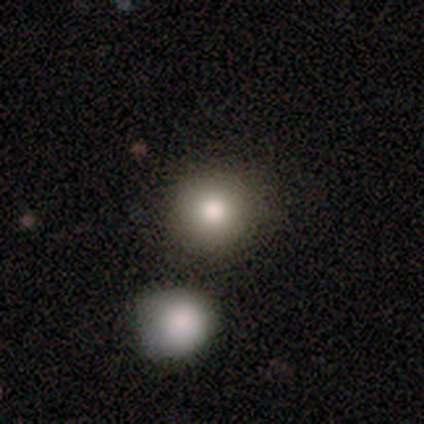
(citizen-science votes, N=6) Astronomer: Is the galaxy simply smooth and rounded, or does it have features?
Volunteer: smooth — 83%.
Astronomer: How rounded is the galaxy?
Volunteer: round — 100%.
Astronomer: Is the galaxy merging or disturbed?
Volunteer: none — 80%.